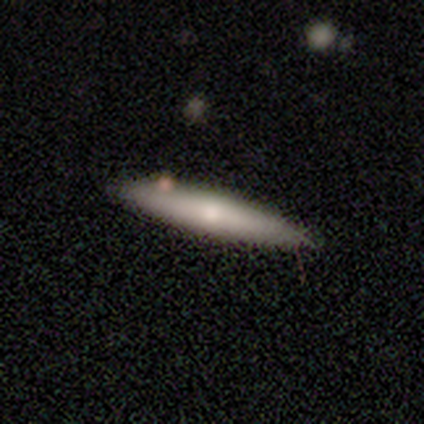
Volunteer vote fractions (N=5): Smooth or featured? smooth (80%)
How rounded? cigar-shaped (100%)
Merging? none (80%)